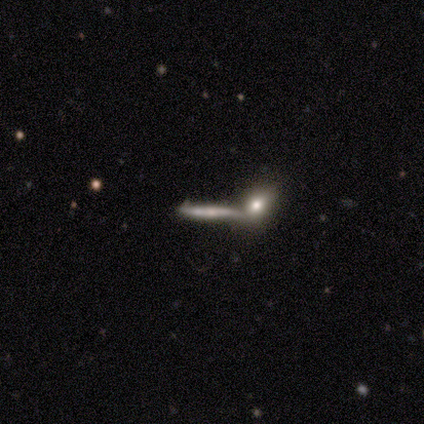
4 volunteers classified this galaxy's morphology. A featured or disk galaxy (75%) viewed edge-on (100%) with a rounded central bulge (67%). Merging: none (50%).